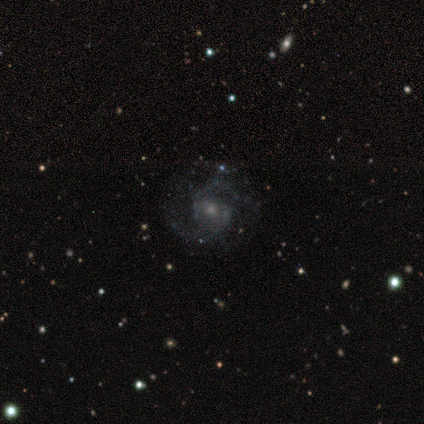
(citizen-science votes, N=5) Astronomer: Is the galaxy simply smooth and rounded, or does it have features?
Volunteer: featured or disk — 100%.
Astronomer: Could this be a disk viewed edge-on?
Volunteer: no — 100%.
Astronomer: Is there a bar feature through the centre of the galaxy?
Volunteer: no — 60% (runner-up: weak, 40%).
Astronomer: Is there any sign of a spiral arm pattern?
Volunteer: yes — 100%.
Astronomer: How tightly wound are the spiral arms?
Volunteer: tight — 40%, tied with medium at 40%.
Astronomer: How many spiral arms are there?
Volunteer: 2 — 80%.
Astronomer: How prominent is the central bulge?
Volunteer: small — 80%.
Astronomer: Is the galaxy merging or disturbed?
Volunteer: none — 100%.